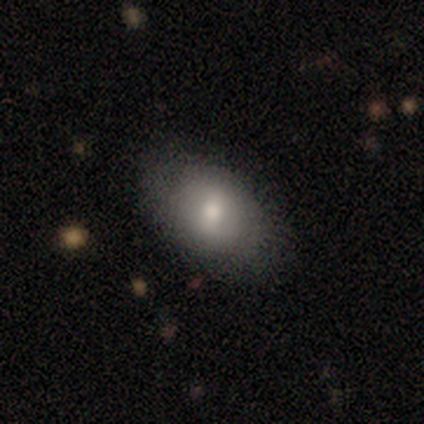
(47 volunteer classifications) Volunteers were most divided on "merging": none: 77%, minor disturbance: 19%, major disturbance: 5%, merger: 0%. More confident: smooth or featured — smooth (85%); how rounded — in between (82%).